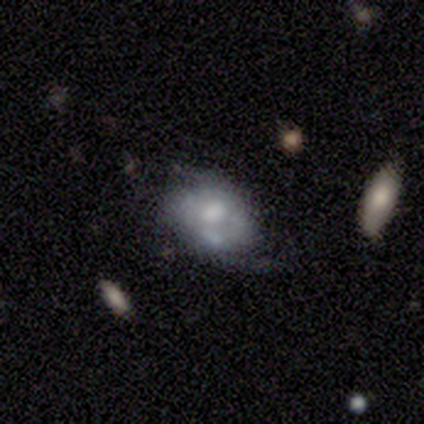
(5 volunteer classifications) Overall: smooth (60%; featured or disk 40%). How rounded: in between (100%). Merging: none (40%, tied with merger).